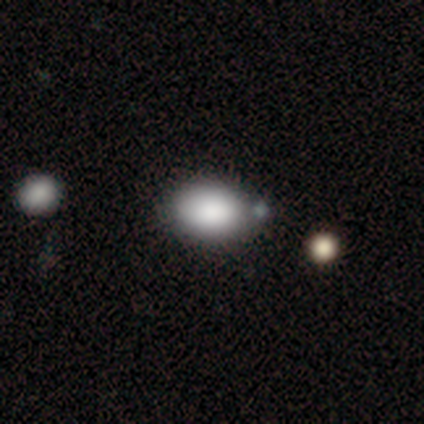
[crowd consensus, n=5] smooth-or-featured: smooth: 100% | featured or disk: 0% | star or artifact: 0%
  how-rounded: in between: 100% | round: 0% | cigar-shaped: 0%
  merging: none: 40% (tied) | merger: 40% (tied) | minor disturbance: 20% | major disturbance: 0%